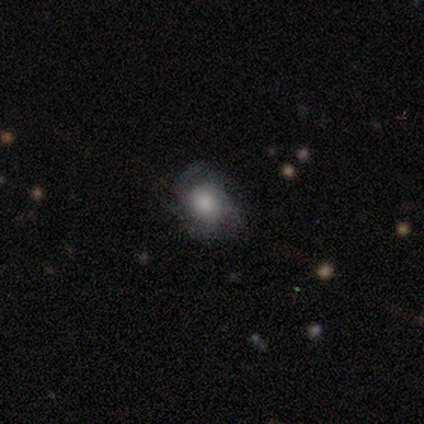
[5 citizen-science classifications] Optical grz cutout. It shows a featured or disk galaxy (60%) with no bar (67%), tight (67%) spiral arms (100%) and a moderate central bulge (67%). Merging: none (80%).